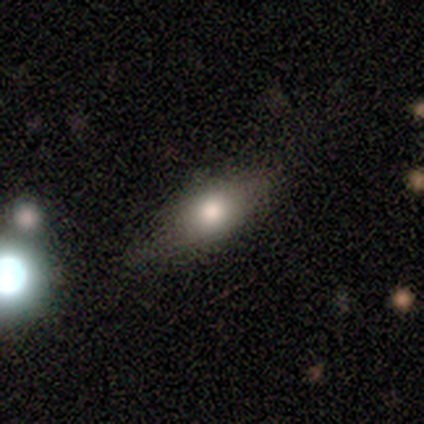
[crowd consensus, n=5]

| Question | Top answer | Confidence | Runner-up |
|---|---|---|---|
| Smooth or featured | smooth | 60% | featured or disk (40%) |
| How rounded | cigar-shaped | 67% | in between (33%) |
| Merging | none | 60% | minor disturbance (40%) |